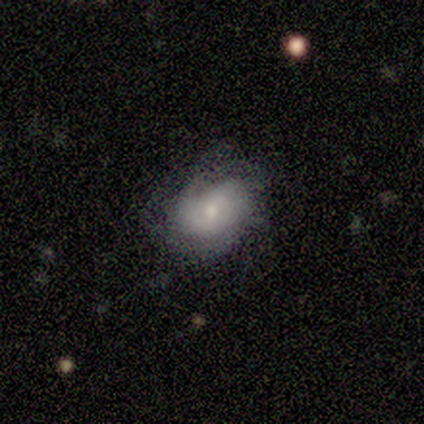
Smooth or featured: featured or disk — 80% (smooth — 20%)
Edge-on disk: no — 100%
Bar: no — 75% (weak — 25%)
Spiral arms: yes — 100%
Spiral winding: tight — 50% (medium — 25%)
Spiral arm count: 2 — 50% (tied with can't tell — 50%)
Bulge size: small — 75% (large — 25%)
Merging: none — 40% (tied with minor disturbance — 40%)